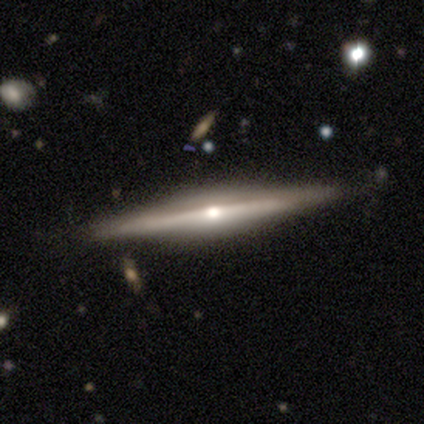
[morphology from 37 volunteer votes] Smooth or featured?
  - featured or disk: 78% *
  - smooth: 22%
  - star or artifact: 0%
Edge-on disk?
  - yes: 100% *
  - no: 0%
Edge-on bulge?
  - rounded: 79% *
  - boxy: 21%
  - none: 0%
Merging?
  - none: 86% *
  - minor disturbance: 11%
  - merger: 3%
  - major disturbance: 0%